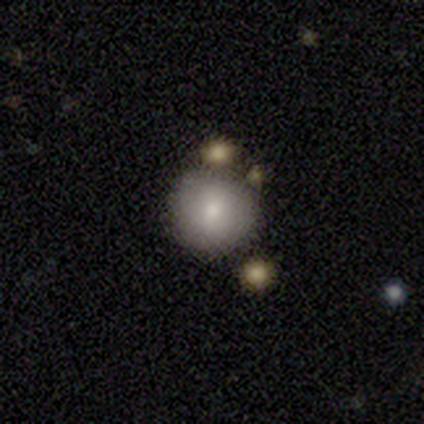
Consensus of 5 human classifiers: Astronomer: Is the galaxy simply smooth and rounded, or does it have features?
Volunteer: smooth — 80%.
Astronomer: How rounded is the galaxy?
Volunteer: round — 100%.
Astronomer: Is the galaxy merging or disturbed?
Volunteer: none — 60% (runner-up: minor disturbance, 40%).